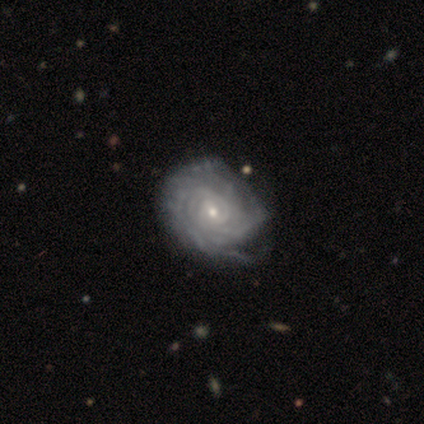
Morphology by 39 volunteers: Volunteers were most divided on "merging": minor disturbance: 31%, none: 21%, major disturbance: 10%, merger: 8%. More confident: edge-on disk — no (100%); spiral arms — yes (100%); smooth or featured — featured or disk (95%); spiral winding — tight (89%); bar — no (65%); bulge size — small (57%); spiral arm count — can't tell (54%).